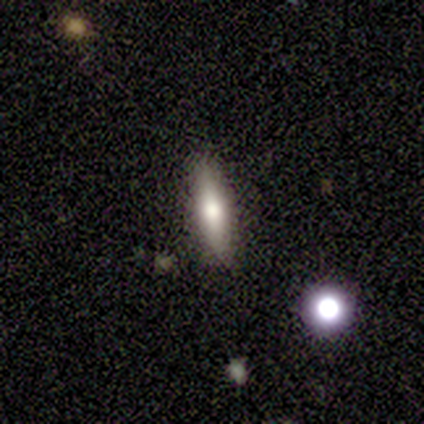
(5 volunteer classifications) smooth_or_featured: featured or disk (p=0.60) [alt: smooth p=0.40]
disk_edge_on: yes (p=1.00)
edge_on_bulge: rounded (p=1.00)
merging: none (p=0.60) [alt: minor disturbance p=0.20]